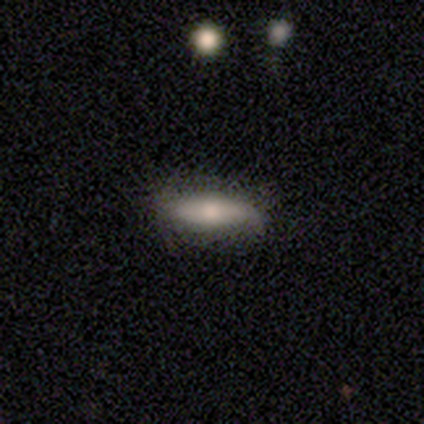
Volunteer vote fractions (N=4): This appears to be a smooth galaxy with no disk features (50%, tied with featured or disk) that is in between round and cigar-shaped (50%, tied with cigar-shaped). Merging: none (100%).